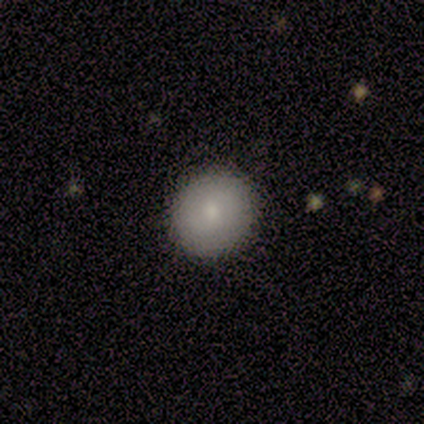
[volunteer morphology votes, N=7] Smooth or featured? 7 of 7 (100%) said smooth. How rounded? 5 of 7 (71%) said round. Merging? 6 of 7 (86%) said none.